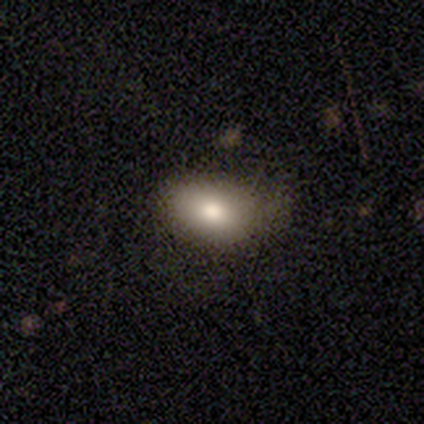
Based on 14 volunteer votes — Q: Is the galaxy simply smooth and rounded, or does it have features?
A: smooth — 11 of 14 (79%).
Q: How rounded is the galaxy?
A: in between — 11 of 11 (100%).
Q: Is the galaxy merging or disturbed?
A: none — 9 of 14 (64%).